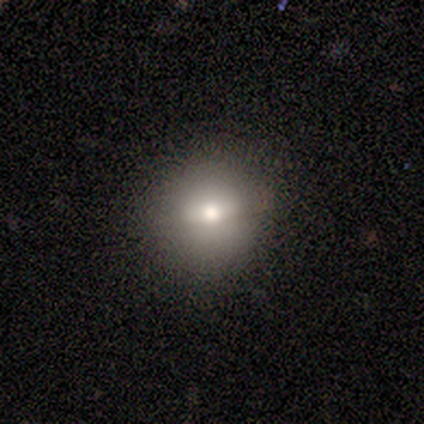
smooth_or_featured: smooth (p=0.80) [alt: star or artifact p=0.20]
how_rounded: round (p=1.00)
merging: none (p=1.00)